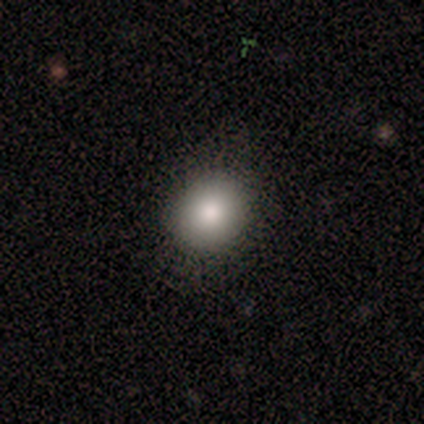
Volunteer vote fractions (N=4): Smooth or featured?
  - smooth: 75% *
  - featured or disk: 25%
  - star or artifact: 0%
How rounded?
  - round: 100% *
  - in between: 0%
  - cigar-shaped: 0%
Merging?
  - none: 100% *
  - minor disturbance: 0%
  - major disturbance: 0%
  - merger: 0%